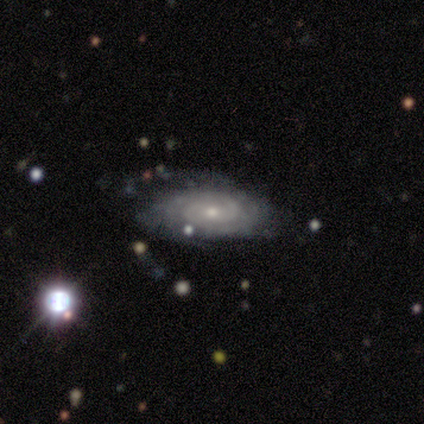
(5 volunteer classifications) A featured or disk galaxy (100%) with no bar (60%), 2 (40%, tied with can't tell) tight (60%) spiral arms (100%) and a moderate central bulge (60%).

Vote fractions:
- Smooth or featured? featured or disk: 100% / smooth: 0% / star or artifact: 0%
- Edge-on disk? no: 100% / yes: 0%
- Bar? no: 60% / weak: 40% / strong: 0%
- Spiral arms? yes: 100% / no: 0%
- Spiral winding? tight: 60% / medium: 40% / loose: 0%
- Spiral arm count? 2: 40% (tied) / can't tell: 40% (tied) / 3: 20% / 1: 0% / 4: 0% / more than 4: 0%
- Bulge size? moderate: 60% / small: 40% / dominant: 0% / large: 0% / none: 0%
- Merging? none: 80% / minor disturbance: 20% / major disturbance: 0% / merger: 0%